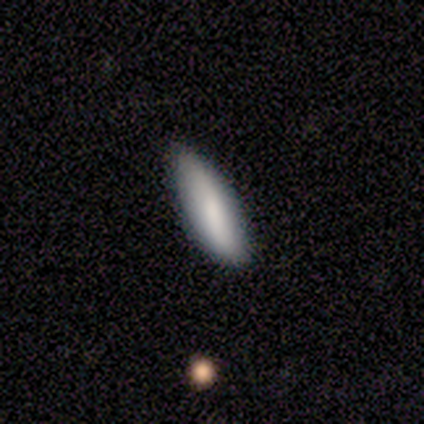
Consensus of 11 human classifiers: A smooth galaxy with no disk features (73%) that is in between round and cigar-shaped (62%). Merging: none (89%).